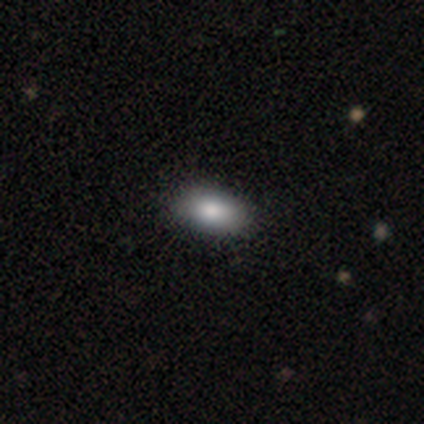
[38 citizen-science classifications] smooth 92%, featured or disk 8%, star or artifact 0%. Down the decision tree: how rounded — in between (91%); merging — none (63%).